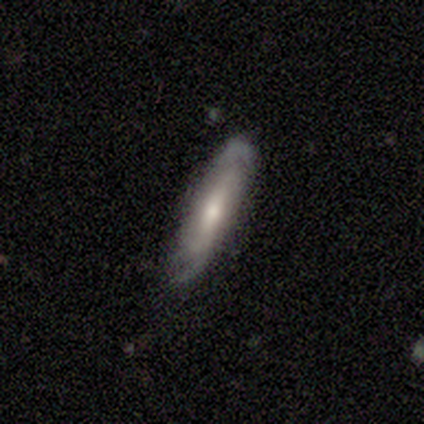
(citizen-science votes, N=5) featured or disk 80%, smooth 20%, star or artifact 0%. Down the decision tree: edge-on disk — yes (50%, tied with no); edge-on bulge — none (50%, tied with rounded); merging — none (80%).